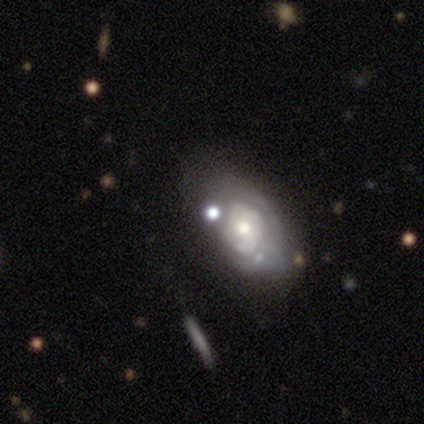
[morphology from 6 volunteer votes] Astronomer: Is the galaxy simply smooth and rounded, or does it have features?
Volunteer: featured or disk — 83%.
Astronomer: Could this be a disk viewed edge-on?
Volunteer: no — 100%.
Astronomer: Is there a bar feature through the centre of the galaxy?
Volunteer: no — 60% (runner-up: weak, 40%).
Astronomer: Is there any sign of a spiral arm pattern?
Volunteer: yes — 80%.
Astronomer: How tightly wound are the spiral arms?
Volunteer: tight — 100%.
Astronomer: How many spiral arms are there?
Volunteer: can't tell — 100%.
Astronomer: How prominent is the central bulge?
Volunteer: moderate — 80%.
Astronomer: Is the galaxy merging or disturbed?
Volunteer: none — 67%.